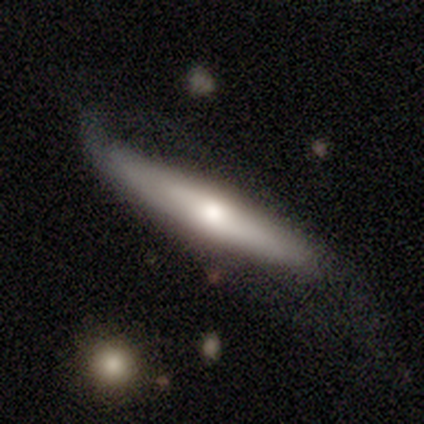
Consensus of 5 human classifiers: A featured or disk galaxy (60%) viewed edge-on (100%) with a rounded central bulge (100%). Merging: none (60%).